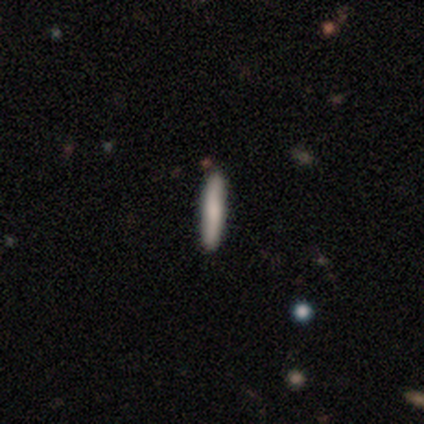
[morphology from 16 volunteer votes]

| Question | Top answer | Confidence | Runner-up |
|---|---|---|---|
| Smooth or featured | smooth | 75% | featured or disk (25%) |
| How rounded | cigar-shaped | 100% | — |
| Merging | none | 88% | minor disturbance (12%) |